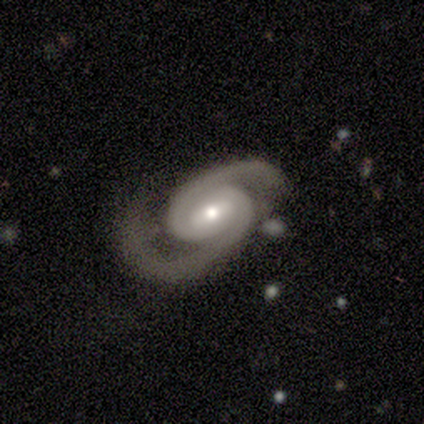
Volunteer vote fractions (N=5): smooth_or_featured: featured or disk (p=1.00)
disk_edge_on: no (p=1.00)
bar: weak (p=0.60) [alt: strong p=0.20]
has_spiral_arms: yes (p=1.00)
spiral_winding: tight (p=0.40) [tied with: medium p=0.40]
spiral_arm_count: 2 (p=1.00)
bulge_size: moderate (p=0.80) [alt: small p=0.20]
merging: none (p=0.40) [tied with: major disturbance p=0.40]